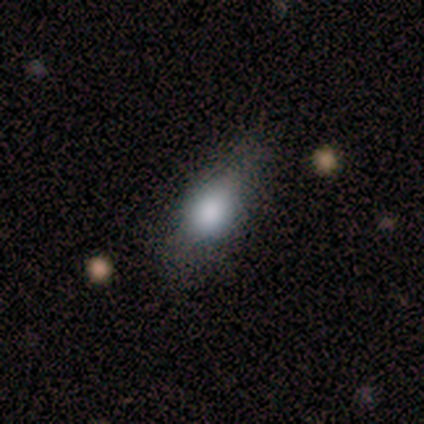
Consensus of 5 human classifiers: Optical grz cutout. It shows a smooth galaxy with no disk features (60%) that is in between round and cigar-shaped (67%). Merging: none (60%).